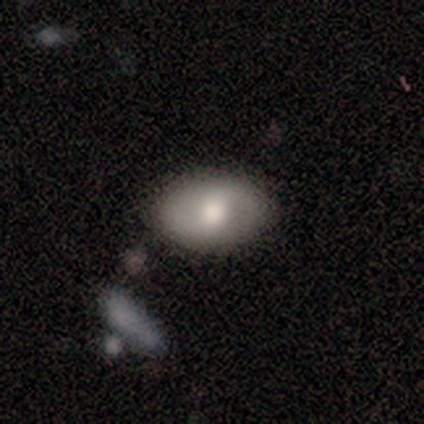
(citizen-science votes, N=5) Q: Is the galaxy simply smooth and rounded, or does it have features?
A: featured or disk — 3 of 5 (60%).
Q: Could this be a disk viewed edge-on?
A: no — 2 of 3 (67%).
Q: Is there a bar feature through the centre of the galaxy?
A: weak — 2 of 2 (100%).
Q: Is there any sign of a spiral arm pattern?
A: yes — 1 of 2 (50%, tied with no).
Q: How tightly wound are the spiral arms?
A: tight — 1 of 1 (100%).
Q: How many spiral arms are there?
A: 2 — 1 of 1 (100%).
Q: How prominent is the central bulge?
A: large — 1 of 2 (50%, tied with moderate).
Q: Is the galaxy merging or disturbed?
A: none — 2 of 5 (40%).